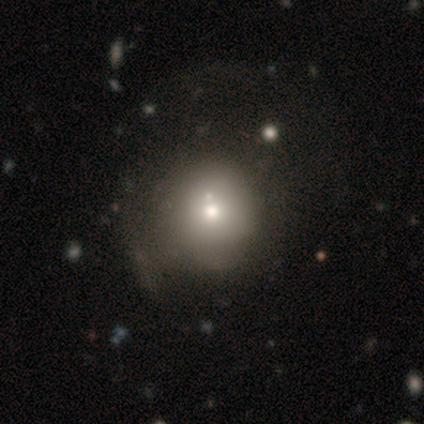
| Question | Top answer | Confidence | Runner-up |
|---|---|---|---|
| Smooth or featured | smooth | 83% | featured or disk (17%) |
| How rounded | round | 80% | in between (20%) |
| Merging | minor disturbance | 67% | none (17%) |